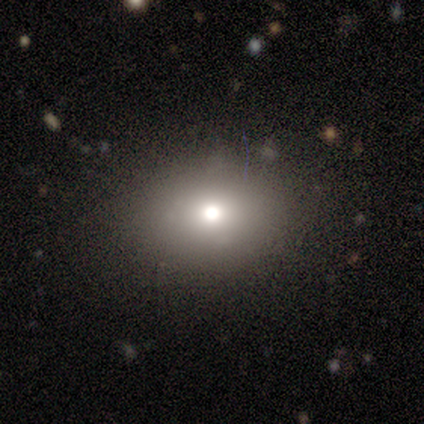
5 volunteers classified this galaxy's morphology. smooth_or_featured: smooth (p=0.60) [alt: star or artifact p=0.40]
how_rounded: in between (p=1.00)
merging: none (p=1.00)